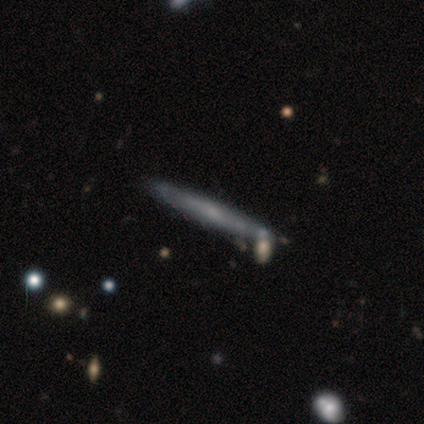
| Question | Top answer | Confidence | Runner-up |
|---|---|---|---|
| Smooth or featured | featured or disk | 67% | smooth (33%) |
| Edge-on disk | yes | 100% | — |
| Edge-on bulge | none | 50% | tied: rounded (50%) |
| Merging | none | 67% | merger (33%) |